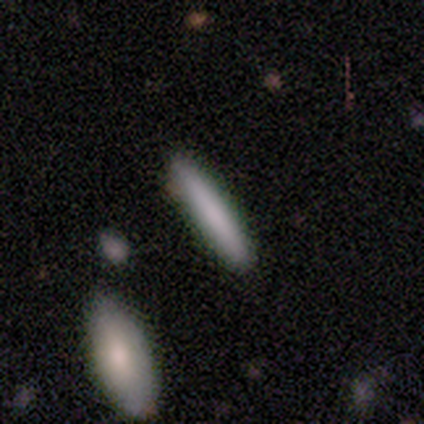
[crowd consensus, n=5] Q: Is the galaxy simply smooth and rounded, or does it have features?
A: smooth — 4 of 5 (80%).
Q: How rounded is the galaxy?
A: cigar-shaped — 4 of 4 (100%).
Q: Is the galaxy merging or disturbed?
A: none — 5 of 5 (100%).